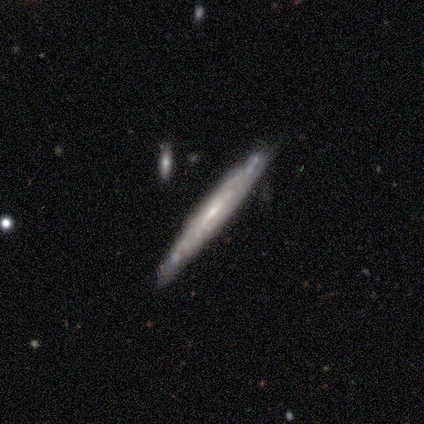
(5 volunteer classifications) Q: Smooth or featured?
A: featured or disk (80%); runner-up: smooth (20%)
Q: Edge-on disk?
A: yes (100%)
Q: Edge-on bulge?
A: none (50%); tied with: rounded (50%)
Q: Merging?
A: none (100%)